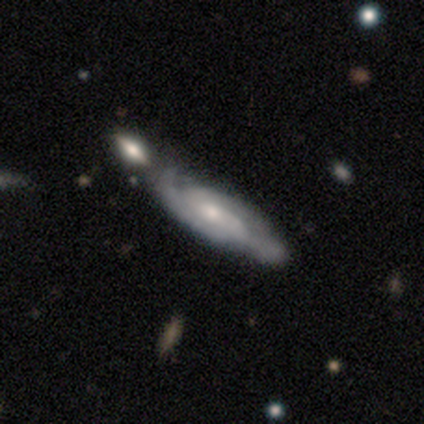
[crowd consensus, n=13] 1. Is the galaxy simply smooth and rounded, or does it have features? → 85% featured or disk, 15% smooth, 0% star or artifact.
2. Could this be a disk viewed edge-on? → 100% no, 0% yes.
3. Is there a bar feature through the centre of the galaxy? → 45% weak (tied), 45% no (tied), 9% strong.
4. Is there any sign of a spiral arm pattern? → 100% yes, 0% no.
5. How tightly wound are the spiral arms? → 64% medium, 36% tight, 0% loose.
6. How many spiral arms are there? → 64% 2, 36% can't tell, 0% 1, 0% 3, 0% 4, 0% more than 4.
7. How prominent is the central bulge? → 55% small, 45% moderate, 0% dominant, 0% large, 0% none.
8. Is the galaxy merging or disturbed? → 54% none, 31% merger, 8% minor disturbance, 8% major disturbance.